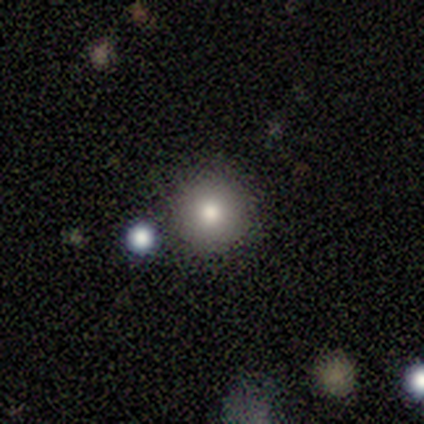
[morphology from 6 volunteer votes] This appears to be a smooth galaxy with no disk features (50%) that is round (100%). Merging: none (50%).